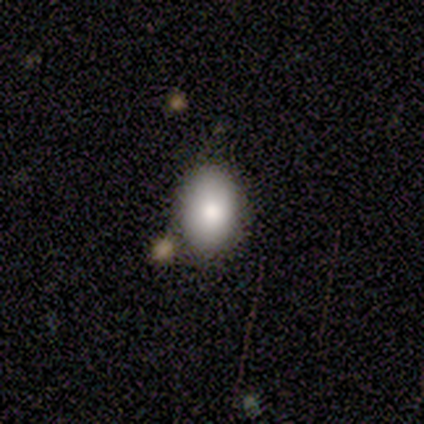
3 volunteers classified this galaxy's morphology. Volunteers were most divided on "how rounded" (2-way tie): round: 50%, in between: 50%, cigar-shaped: 0%. More confident: merging — none (100%); smooth or featured — smooth (67%).